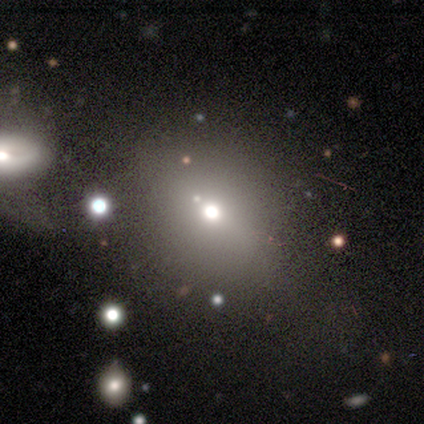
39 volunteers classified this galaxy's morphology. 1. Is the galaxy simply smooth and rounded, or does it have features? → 64% smooth, 23% star or artifact, 13% featured or disk.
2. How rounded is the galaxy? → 72% round, 24% in between, 4% cigar-shaped.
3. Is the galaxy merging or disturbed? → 60% none, 20% major disturbance, 13% minor disturbance, 7% merger.